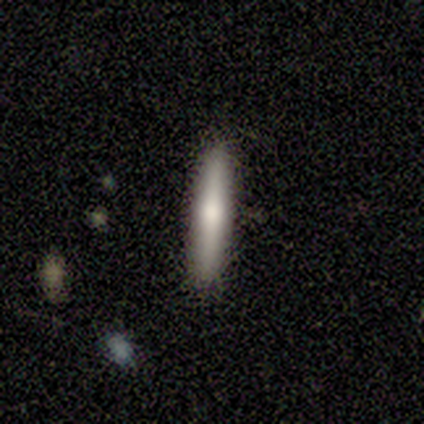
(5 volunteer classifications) This is marginally a smooth galaxy (40%, tied with featured or disk). How rounded: clearly cigar-shaped (100%). Merging: likely none (75%).